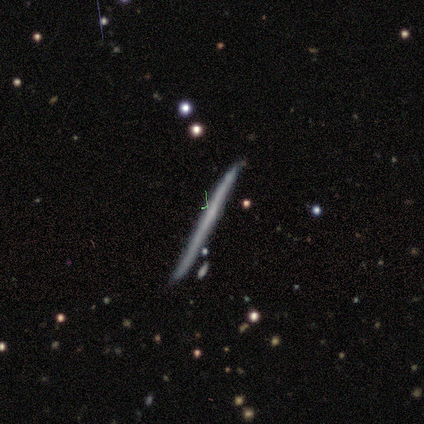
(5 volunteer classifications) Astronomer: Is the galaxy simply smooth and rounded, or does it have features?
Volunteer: featured or disk — 60%.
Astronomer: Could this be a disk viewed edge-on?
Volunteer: yes — 100%.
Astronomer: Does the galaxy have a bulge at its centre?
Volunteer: none — 100%.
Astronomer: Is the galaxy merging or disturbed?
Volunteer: none — 100%.